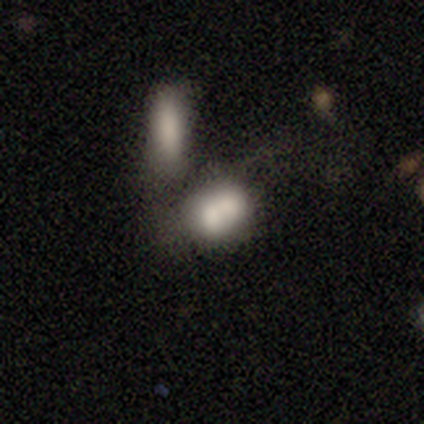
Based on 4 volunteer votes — Volunteers were most divided on "merging": merger: 67%, none: 33%, minor disturbance: 0%, major disturbance: 0%. More confident: how rounded — round (100%); smooth or featured — smooth (75%).